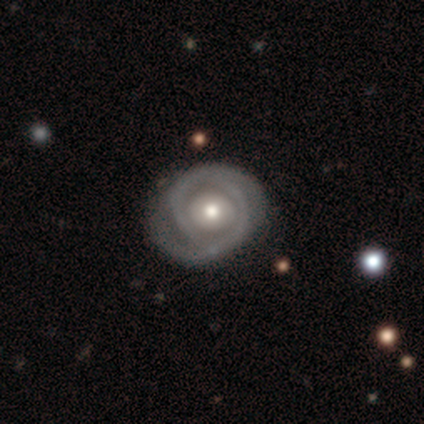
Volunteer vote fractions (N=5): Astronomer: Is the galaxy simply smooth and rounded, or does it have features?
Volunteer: featured or disk — 100%.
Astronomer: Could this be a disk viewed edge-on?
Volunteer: no — 100%.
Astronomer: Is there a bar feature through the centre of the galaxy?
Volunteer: no — 100%.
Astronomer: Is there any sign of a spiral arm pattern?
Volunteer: yes — 80%.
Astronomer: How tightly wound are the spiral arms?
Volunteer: tight — 100%.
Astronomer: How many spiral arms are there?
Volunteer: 2 — 50%.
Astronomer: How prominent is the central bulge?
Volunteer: moderate — 60%.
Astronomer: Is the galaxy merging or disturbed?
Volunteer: none — 100%.